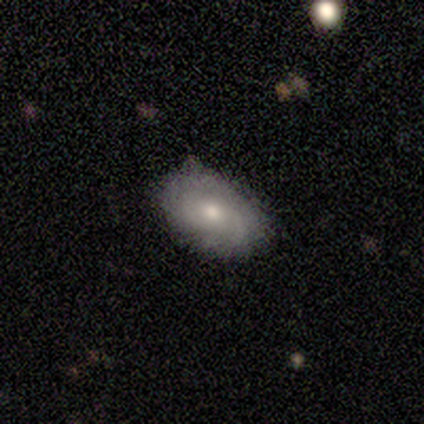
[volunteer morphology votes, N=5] A featured or disk galaxy (60%) with a weak bar (100%), 2 (100%) tight (50%, tied with loose) spiral arms (100%) and a moderate central bulge (50%, tied with none). Merging: minor disturbance (75%).